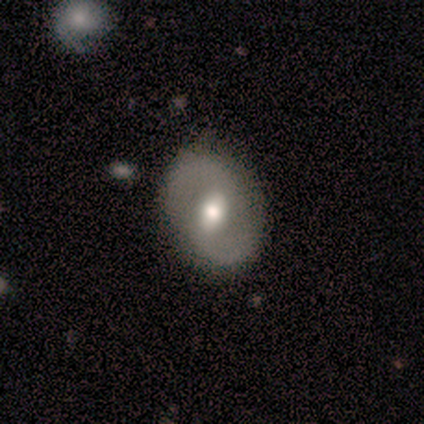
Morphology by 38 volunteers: Smooth or featured? 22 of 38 (58%) said featured or disk. Edge-on disk? 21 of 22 (95%) said no. Bar? 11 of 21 (52%) said weak. Spiral arms? 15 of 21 (71%) said yes. Spiral winding? 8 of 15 (53%) said loose. Spiral arm count? 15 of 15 (100%) said 2. Bulge size? 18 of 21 (86%) said moderate. Merging? 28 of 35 (80%) said none.